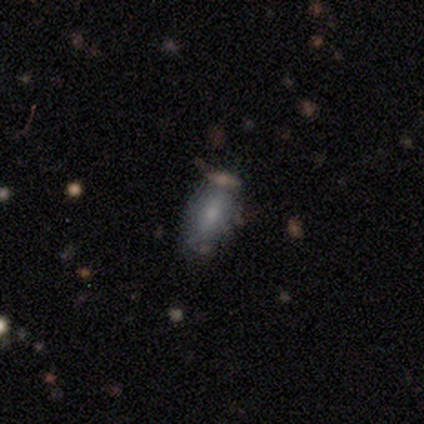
Smooth or featured? smooth (100%)
How rounded? in between (88%)
Merging? none (88%)